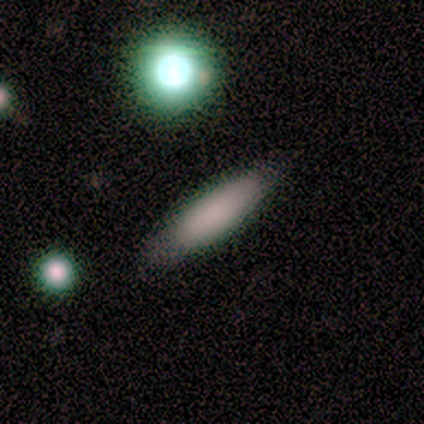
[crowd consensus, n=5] smooth_or_featured: smooth (p=1.00)
how_rounded: cigar-shaped (p=0.60) [alt: in between p=0.40]
merging: none (p=0.80) [alt: minor disturbance p=0.20]